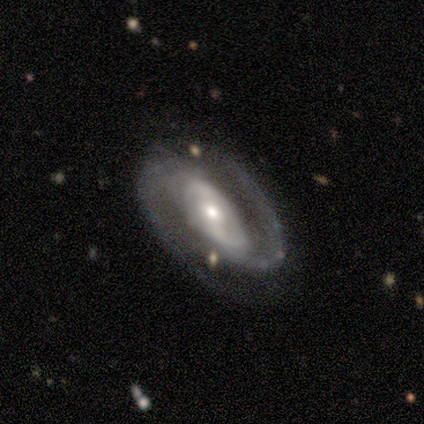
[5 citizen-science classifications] Q: Smooth or featured?
A: featured or disk (100%)
Q: Edge-on disk?
A: no (100%)
Q: Bar?
A: strong (40%); tied with: weak (40%)
Q: Spiral arms?
A: yes (100%)
Q: Spiral winding?
A: tight (40%); tied with: loose (40%)
Q: Spiral arm count?
A: 2 (100%)
Q: Bulge size?
A: small (80%); runner-up: moderate (20%)
Q: Merging?
A: none (80%); runner-up: merger (20%)